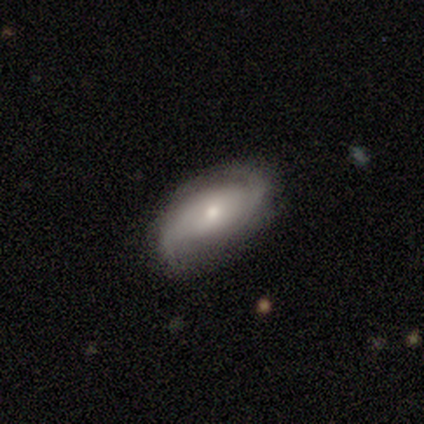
A smooth galaxy with no disk features (60%) that is in between round and cigar-shaped (100%). Merging: none (50%).